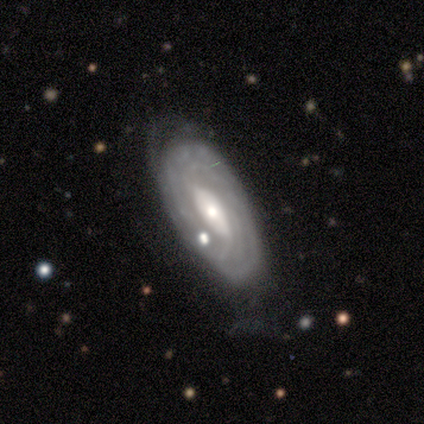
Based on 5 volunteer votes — This appears to be a featured or disk galaxy (100%) with a weak bar (80%), 3 (50%, tied with can't tell) tight (100%) spiral arms (80%) and a small central bulge (60%). Merging: none (80%).